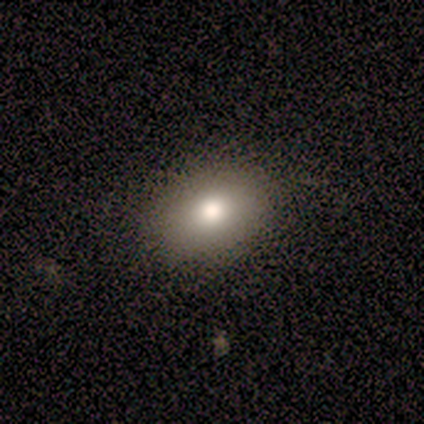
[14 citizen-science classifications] smooth 86%, star or artifact 14%, featured or disk 0%. Down the decision tree: how rounded — in between (92%); merging — none (92%).